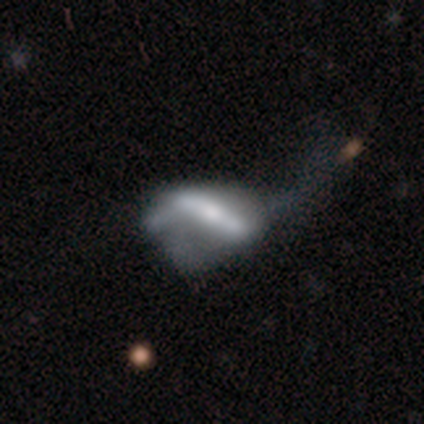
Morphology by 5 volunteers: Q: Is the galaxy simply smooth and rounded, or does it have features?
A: featured or disk — 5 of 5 (100%).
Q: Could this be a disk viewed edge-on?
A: yes — 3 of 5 (60%).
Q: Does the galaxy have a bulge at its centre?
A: rounded — 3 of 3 (100%).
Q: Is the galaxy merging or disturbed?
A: major disturbance — 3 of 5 (60%).